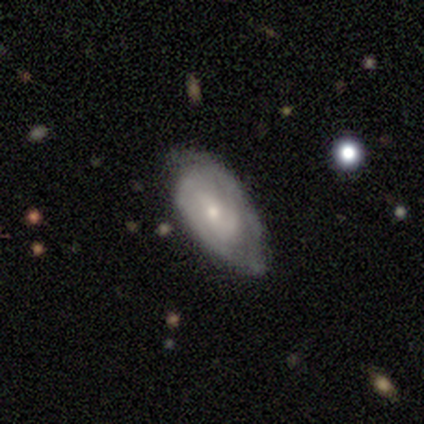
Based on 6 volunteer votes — Overall: featured or disk (100%). Edge-on disk: no (83%). Bar: weak (60%; strong 20%). Spiral arms: yes (100%). Spiral arm count: 2 (60%; can't tell 40%). Spiral winding: medium (60%; tight 40%). Bulge size: moderate (60%; small 40%). Merging: none (67%; minor disturbance 33%).